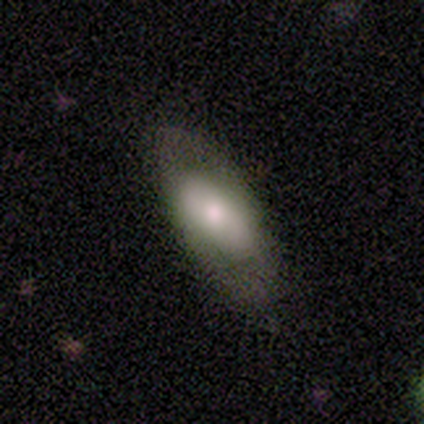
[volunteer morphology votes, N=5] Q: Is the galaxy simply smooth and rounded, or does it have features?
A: smooth — 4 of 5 (80%).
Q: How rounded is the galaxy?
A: in between — 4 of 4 (100%).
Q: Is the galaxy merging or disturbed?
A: none — 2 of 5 (40%, tied with minor disturbance).